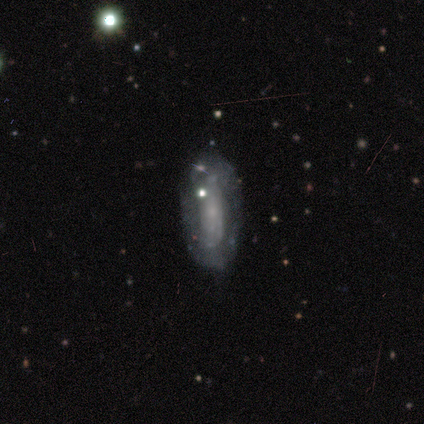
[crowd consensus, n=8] Smooth or featured? featured or disk (75%)
Edge-on disk? no (100%)
Bar? no (83%)
Spiral arms? no (83%)
Bulge size? small (67%)
Merging? none (71%)